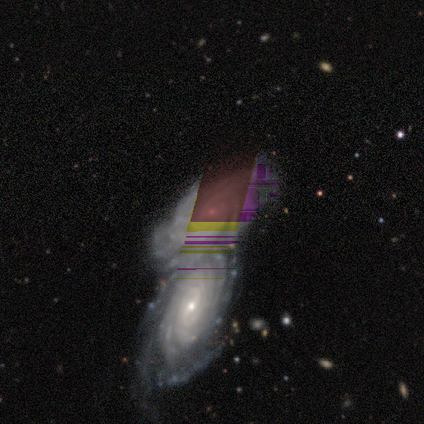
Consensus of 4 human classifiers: This appears to be a featured or disk galaxy (100%) viewed edge-on (50%, tied with no) with no central bulge (50%, tied with rounded). Merging: merger (75%).